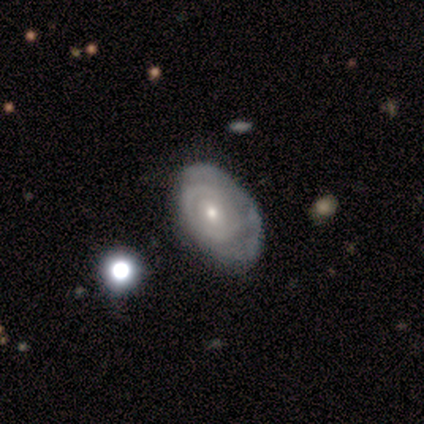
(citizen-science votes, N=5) This is likely a featured or disk galaxy (60%). It is clearly not viewed edge-on (100%). Bar: clearly no (100%). Spiral arm pattern: likely yes (67%). Spiral arm count: possibly more than 4 (50%, tied with can't tell). Spiral winding: clearly tight (100%). Central bulge: likely small (67%). Merging: clearly none (100%).